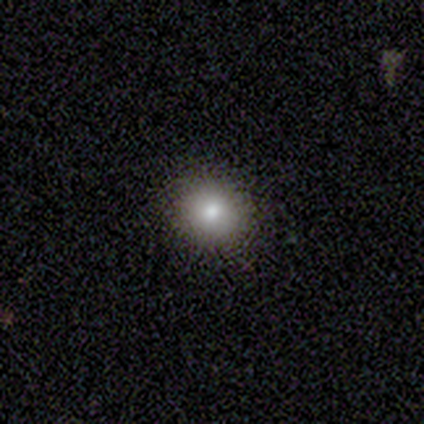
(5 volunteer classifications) This is clearly a smooth galaxy (80%). How rounded: likely round (75%). Merging: clearly none (100%).